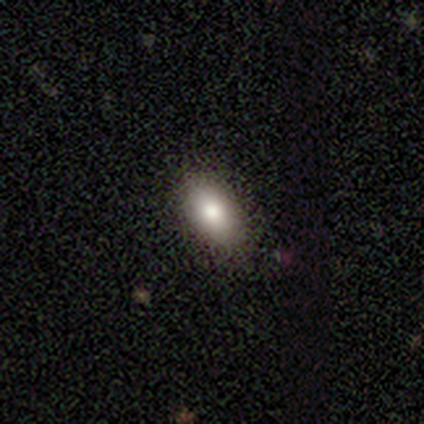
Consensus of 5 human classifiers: A smooth galaxy with no disk features (80%) that is in between round and cigar-shaped (100%). Merging: none (75%).